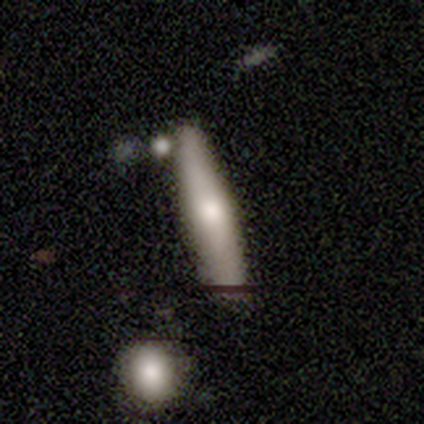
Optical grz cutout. It shows a smooth galaxy with no disk features (100%) that is cigar-shaped (100%). Merging: none (33%, tied with minor disturbance and major disturbance).